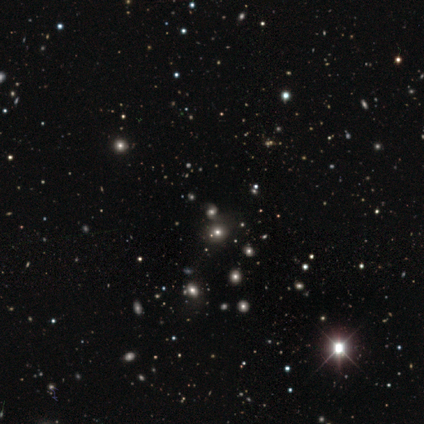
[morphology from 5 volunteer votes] Smooth or featured? star or artifact (80%)